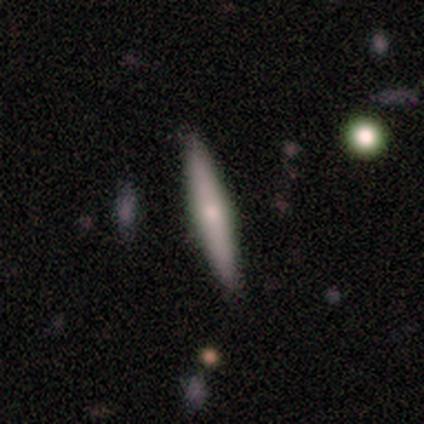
Q: Smooth or featured?
A: smooth (54%); runner-up: featured or disk (40%)
Q: How rounded?
A: cigar-shaped (95%); runner-up: in between (5%)
Q: Merging?
A: none (51%); runner-up: minor disturbance (7%)